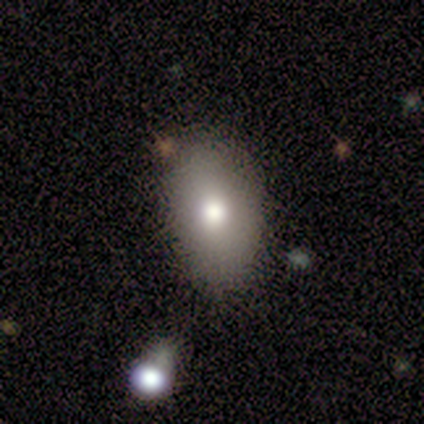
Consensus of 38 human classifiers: Volunteers were most divided on "merging": none: 69%, minor disturbance: 23%, merger: 6%, major disturbance: 3%. More confident: how rounded — in between (90%); smooth or featured — smooth (76%).